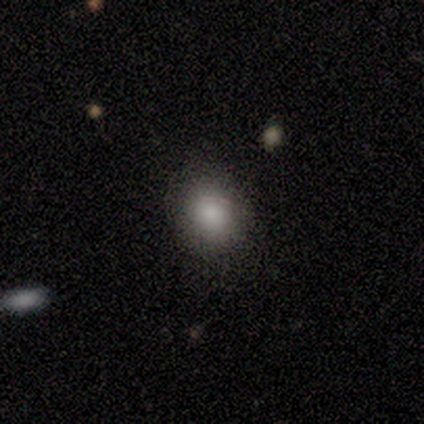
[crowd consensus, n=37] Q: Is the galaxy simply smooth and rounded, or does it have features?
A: smooth — 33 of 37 (89%).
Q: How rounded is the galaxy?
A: round — 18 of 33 (55%).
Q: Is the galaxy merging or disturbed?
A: none — 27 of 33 (82%).